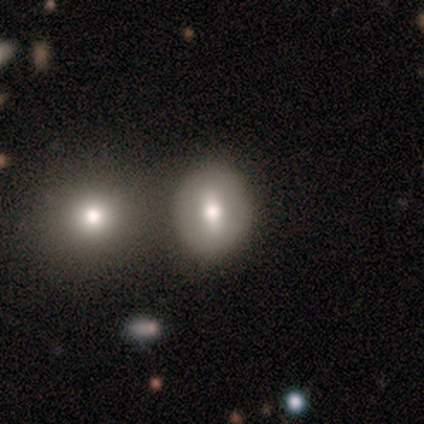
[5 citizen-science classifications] Overall: smooth (80%). How rounded: in between (75%). Merging: none (40%, tied with minor disturbance).